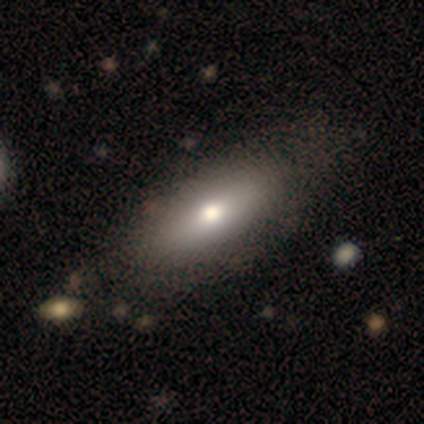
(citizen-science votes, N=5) smooth_or_featured: smooth (p=1.00)
how_rounded: in between (p=1.00)
merging: none (p=0.60) [alt: minor disturbance p=0.20]